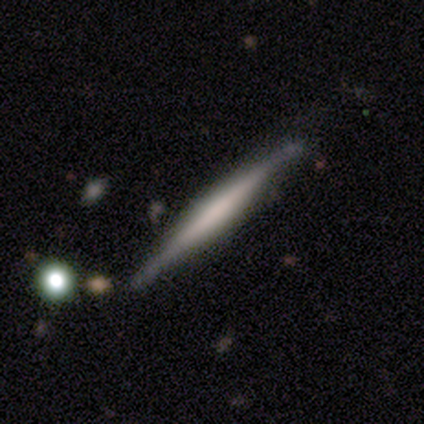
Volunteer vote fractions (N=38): Smooth or featured? featured or disk (61%)
Edge-on disk? yes (100%)
Edge-on bulge? none (57%)
Merging? none (89%)